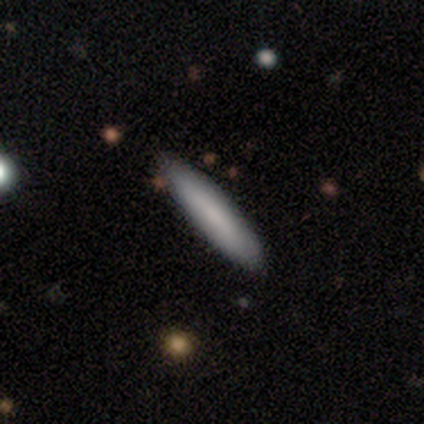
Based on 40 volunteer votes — Overall: smooth (78%). How rounded: cigar-shaped (94%). Merging: none (62%).